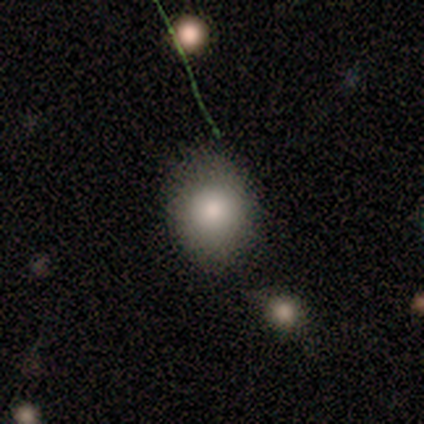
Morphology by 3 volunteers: Smooth or featured: smooth — 100%
How rounded: round — 67% (in between — 33%)
Merging: none — 67% (merger — 33%)